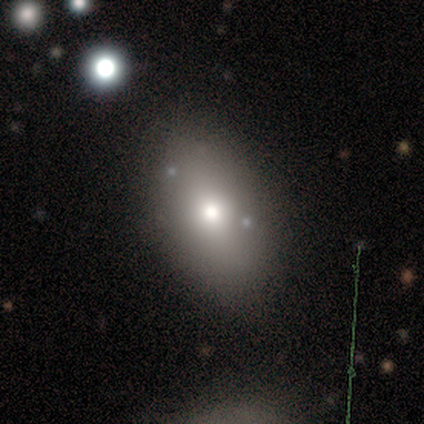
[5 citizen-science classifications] smooth 60%, featured or disk 20%, star or artifact 20%. Down the decision tree: how rounded — in between (67%); merging — none (100%).